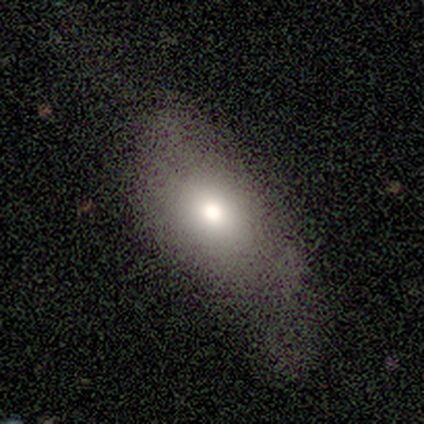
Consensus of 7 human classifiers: A smooth galaxy with no disk features (71%) that is in between round and cigar-shaped (60%).

Vote fractions:
- Smooth or featured? smooth: 71% / featured or disk: 14% / star or artifact: 14%
- How rounded? in between: 60% / round: 40% / cigar-shaped: 0%
- Merging? minor disturbance: 50% / major disturbance: 33% / none: 17% / merger: 0%